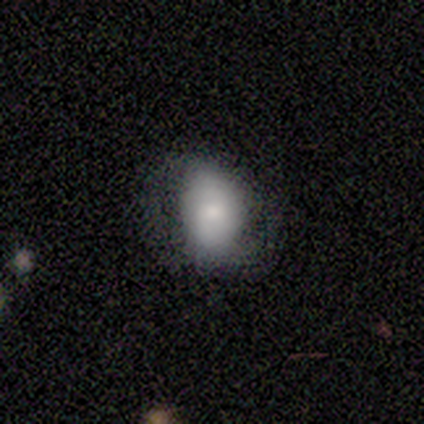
smooth 75%, featured or disk 25%, star or artifact 0%. Down the decision tree: how rounded — in between (100%); merging — none (100%).